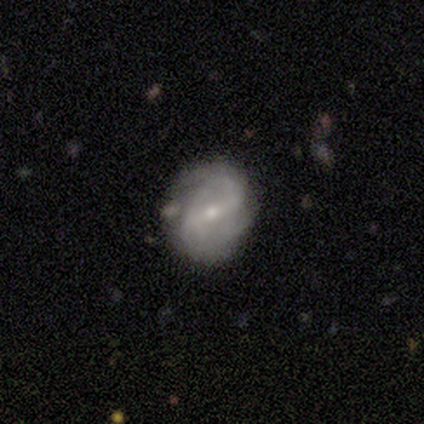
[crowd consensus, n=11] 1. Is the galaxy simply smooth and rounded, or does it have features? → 82% featured or disk, 9% smooth, 9% star or artifact.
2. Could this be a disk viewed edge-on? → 100% no, 0% yes.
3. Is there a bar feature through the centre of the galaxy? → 44% strong (tied), 44% weak (tied), 11% no.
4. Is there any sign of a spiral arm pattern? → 100% yes, 0% no.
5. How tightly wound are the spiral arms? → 56% medium, 44% loose, 0% tight.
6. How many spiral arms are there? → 100% 2, 0% 1, 0% 3, 0% 4, 0% more than 4, 0% can't tell.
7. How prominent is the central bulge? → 78% small, 22% moderate, 0% dominant, 0% large, 0% none.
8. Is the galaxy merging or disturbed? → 50% minor disturbance, 40% none, 10% major disturbance, 0% merger.